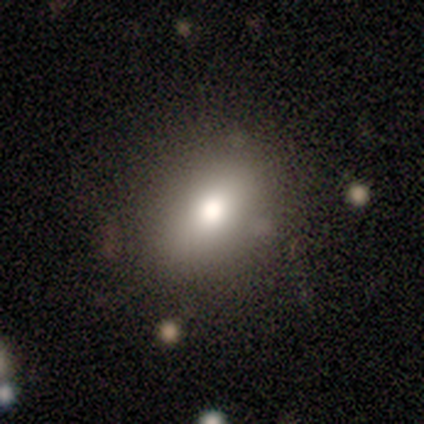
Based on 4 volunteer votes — Volunteers were most divided on "how rounded": in between: 75%, round: 25%, cigar-shaped: 0%. More confident: smooth or featured — smooth (100%); merging — none (75%).